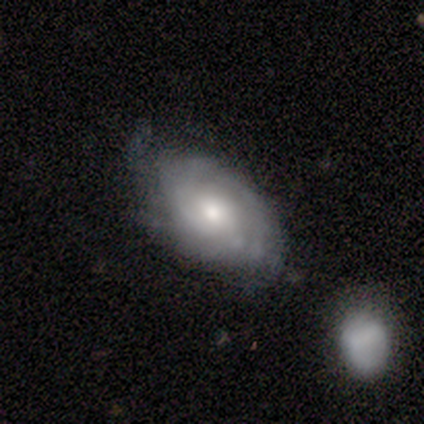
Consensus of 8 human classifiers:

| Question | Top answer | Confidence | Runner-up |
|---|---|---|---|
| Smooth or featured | featured or disk | 100% | — |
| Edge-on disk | no | 100% | — |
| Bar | no | 75% | strong (12%) |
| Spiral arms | yes | 100% | — |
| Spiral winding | tight | 50% | medium (25%) |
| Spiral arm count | can't tell | 50% | 2 (25%) |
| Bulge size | moderate | 62% | small (25%) |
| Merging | none | 62% | minor disturbance (38%) |